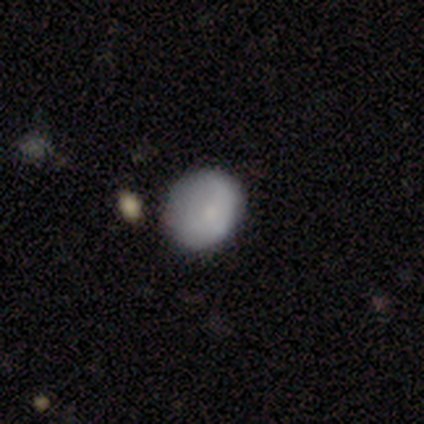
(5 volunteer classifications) smooth-or-featured: smooth: 100% | featured or disk: 0% | star or artifact: 0%
  how-rounded: round: 60% | in between: 40% | cigar-shaped: 0%
  merging: major disturbance: 60% | minor disturbance: 40% | none: 0% | merger: 0%